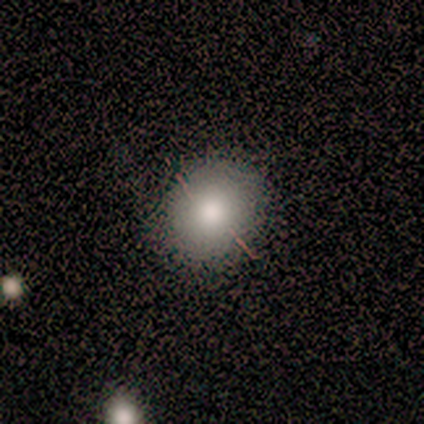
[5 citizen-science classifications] Q: Smooth or featured?
A: smooth (60%); runner-up: featured or disk (20%)
Q: How rounded?
A: round (100%)
Q: Merging?
A: none (100%)